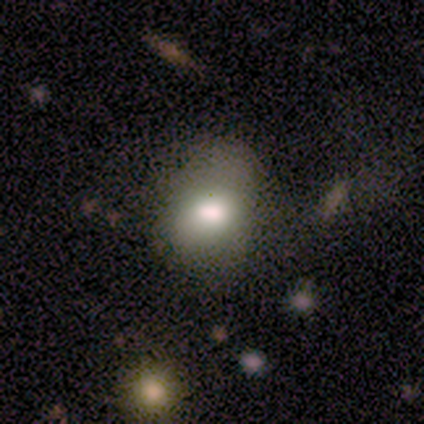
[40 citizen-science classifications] Morphology: type=smooth (75%); roundness=in between (60%); merging=none (51%).